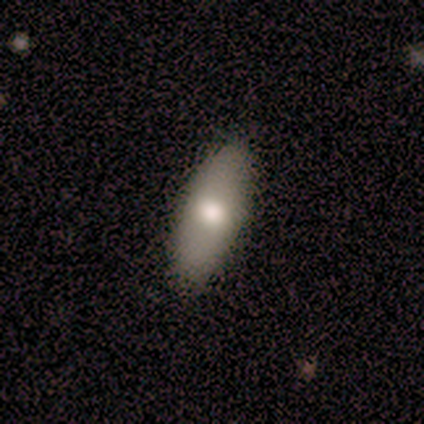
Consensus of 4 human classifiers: Smooth or featured?
  - smooth: 50% * (tied)
  - featured or disk: 50% * (tied)
  - star or artifact: 0%
How rounded?
  - in between: 100% *
  - round: 0%
  - cigar-shaped: 0%
Merging?
  - none: 100% *
  - minor disturbance: 0%
  - major disturbance: 0%
  - merger: 0%